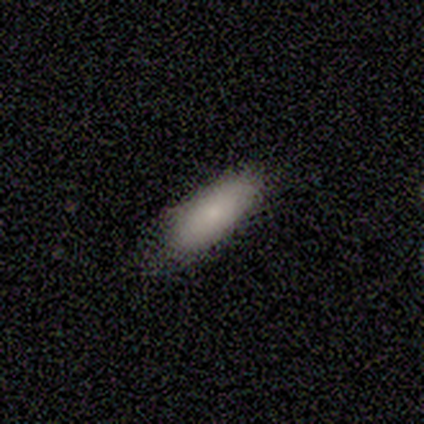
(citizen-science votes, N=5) This appears to be a smooth galaxy with no disk features (80%) that is in between round and cigar-shaped (75%). Merging: none (60%).